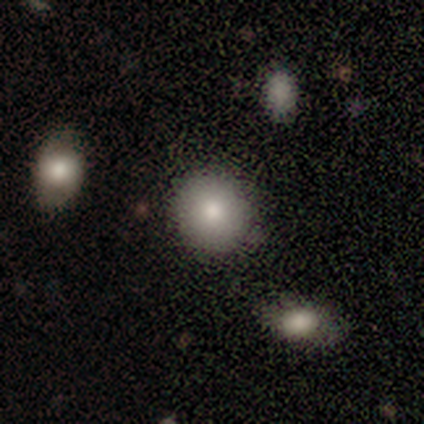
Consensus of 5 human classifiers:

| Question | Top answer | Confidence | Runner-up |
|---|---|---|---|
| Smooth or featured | smooth | 100% | — |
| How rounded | round | 100% | — |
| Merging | none | 100% | — |